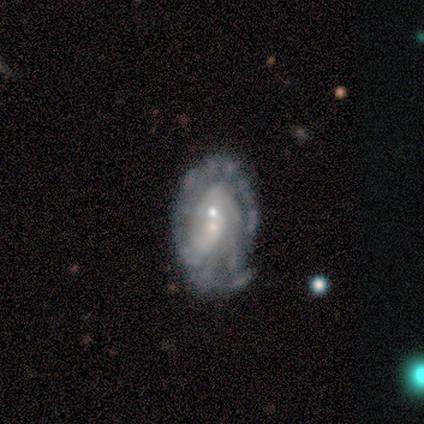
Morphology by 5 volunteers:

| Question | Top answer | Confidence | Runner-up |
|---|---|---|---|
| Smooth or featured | featured or disk | 80% | smooth (20%) |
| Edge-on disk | no | 100% | — |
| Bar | no | 100% | — |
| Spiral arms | no | 100% | — |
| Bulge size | small | 75% | moderate (25%) |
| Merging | none | 40% | tied: minor disturbance (40%) |